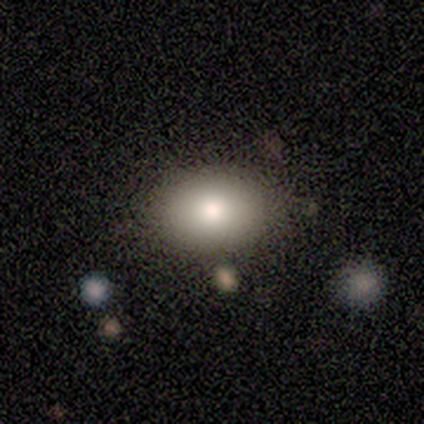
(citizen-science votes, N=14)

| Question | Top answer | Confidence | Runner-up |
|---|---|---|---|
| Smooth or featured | smooth | 100% | — |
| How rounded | in between | 79% | round (21%) |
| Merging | none | 86% | minor disturbance (14%) |